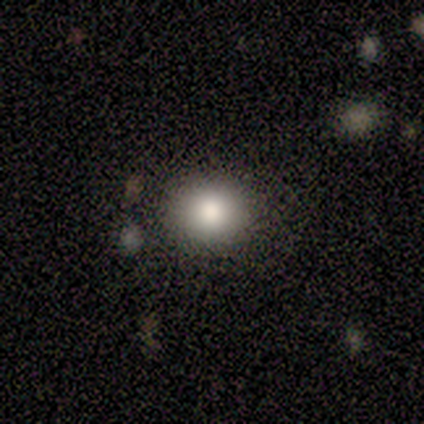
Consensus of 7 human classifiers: Smooth or featured? 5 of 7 (71%) said smooth. How rounded? 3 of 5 (60%) said round. Merging? 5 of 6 (83%) said none.